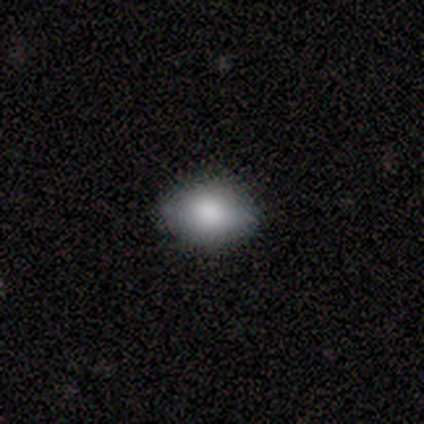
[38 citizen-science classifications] smooth-or-featured: smooth: 87% | featured or disk: 8% | star or artifact: 5%
  how-rounded: in between: 85% | round: 12% | cigar-shaped: 3%
  merging: none: 92% | minor disturbance: 8% | major disturbance: 0% | merger: 0%